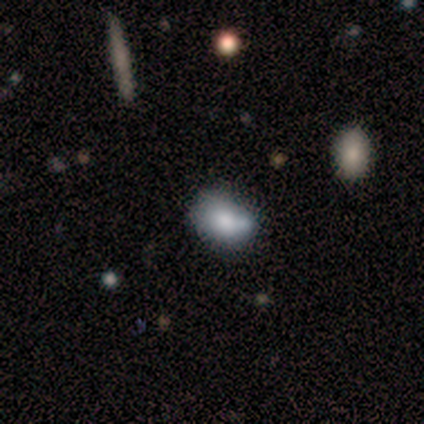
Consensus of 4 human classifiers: Volunteers were most divided on "how rounded": in between: 75%, round: 25%, cigar-shaped: 0%. More confident: smooth or featured — smooth (100%); merging — none (75%).